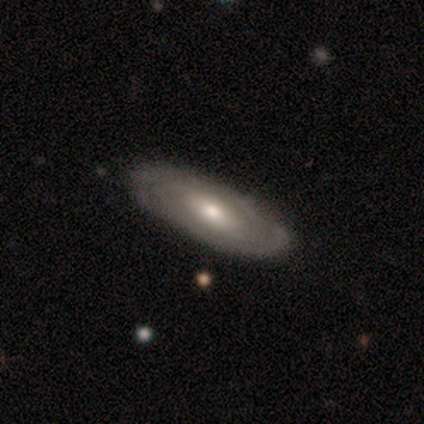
A featured or disk galaxy (80%) with no bar (67%), tight (67%) spiral arms (100%) and a moderate central bulge (67%). Merging: none (100%).